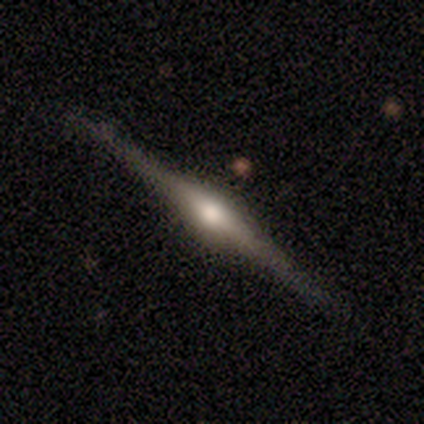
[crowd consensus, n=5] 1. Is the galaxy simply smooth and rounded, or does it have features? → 100% featured or disk, 0% smooth, 0% star or artifact.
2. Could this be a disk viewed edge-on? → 100% yes, 0% no.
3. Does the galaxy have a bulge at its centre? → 100% rounded, 0% boxy, 0% none.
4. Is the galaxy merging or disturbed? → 100% none, 0% minor disturbance, 0% major disturbance, 0% merger.